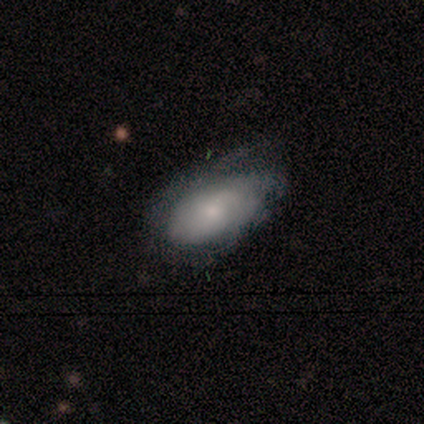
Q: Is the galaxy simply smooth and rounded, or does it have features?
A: featured or disk — 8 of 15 (53%).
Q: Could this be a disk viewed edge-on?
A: no — 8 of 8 (100%).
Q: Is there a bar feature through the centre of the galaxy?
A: no — 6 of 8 (75%).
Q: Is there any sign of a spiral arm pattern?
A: yes — 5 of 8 (62%).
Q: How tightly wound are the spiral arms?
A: tight — 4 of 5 (80%).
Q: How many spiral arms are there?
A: can't tell — 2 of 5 (40%).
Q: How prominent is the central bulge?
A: moderate — 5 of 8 (62%).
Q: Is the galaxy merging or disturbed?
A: minor disturbance — 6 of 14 (43%).